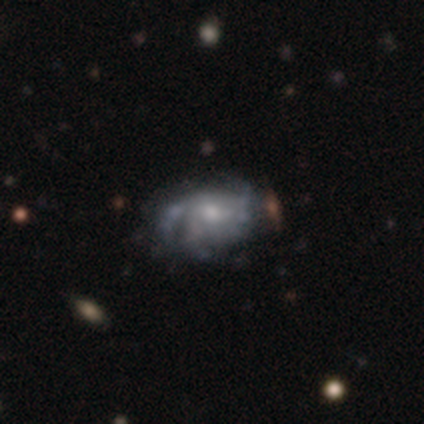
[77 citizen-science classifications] Volunteers were most divided on "merging": none: 26%, minor disturbance: 15%, major disturbance: 8%, merger: 4%. Remaining: edge-on disk — no (98%); spiral arms — yes (78%); smooth or featured — featured or disk (77%); bar — no (67%); spiral arm count — 3 (49%); bulge size — moderate (48%); spiral winding — medium (44%).